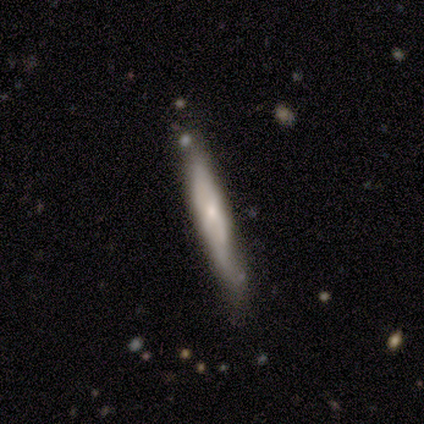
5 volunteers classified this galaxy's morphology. smooth_or_featured: featured or disk (p=0.80) [alt: smooth p=0.20]
disk_edge_on: yes (p=0.75) [alt: no p=0.25]
edge_on_bulge: none (p=0.67) [alt: rounded p=0.33]
merging: none (p=0.60) [alt: minor disturbance p=0.40]